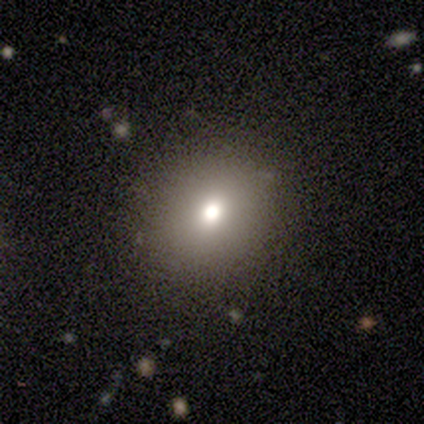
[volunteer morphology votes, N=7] smooth_or_featured: smooth (p=0.71) [alt: featured or disk p=0.14]
how_rounded: in between (p=0.60) [alt: round p=0.40]
merging: none (p=0.83) [alt: major disturbance p=0.17]